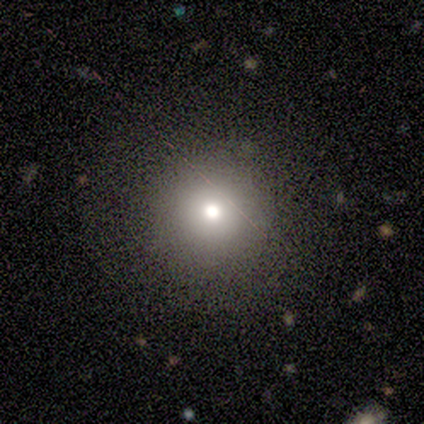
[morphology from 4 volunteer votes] Smooth or featured? 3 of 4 (75%) said star or artifact.